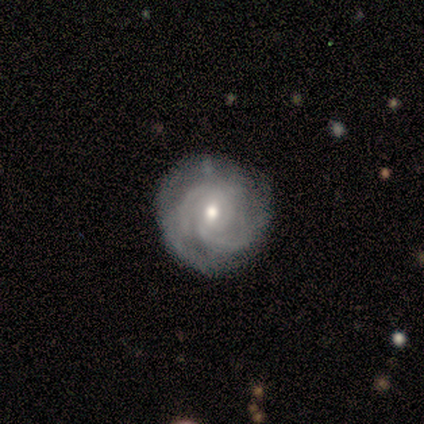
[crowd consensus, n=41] Q: Smooth or featured?
A: featured or disk (78%); runner-up: smooth (12%)
Q: Edge-on disk?
A: no (100%)
Q: Bar?
A: no (69%); runner-up: weak (31%)
Q: Spiral arms?
A: yes (97%); runner-up: no (3%)
Q: Spiral winding?
A: tight (68%); runner-up: medium (26%)
Q: Spiral arm count?
A: 2 (52%); runner-up: can't tell (26%)
Q: Bulge size?
A: moderate (72%); runner-up: small (25%)
Q: Merging?
A: none (76%); runner-up: minor disturbance (16%)